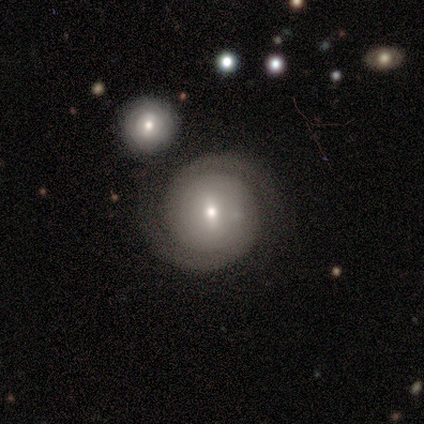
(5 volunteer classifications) Smooth or featured? 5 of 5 (100%) said featured or disk. Edge-on disk? 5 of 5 (100%) said no. Bar? 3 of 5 (60%) said no. Spiral arms? 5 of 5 (100%) said yes. Spiral winding? 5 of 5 (100%) said tight. Spiral arm count? 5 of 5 (100%) said 2. Bulge size? 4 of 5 (80%) said small. Merging? 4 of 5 (80%) said none.